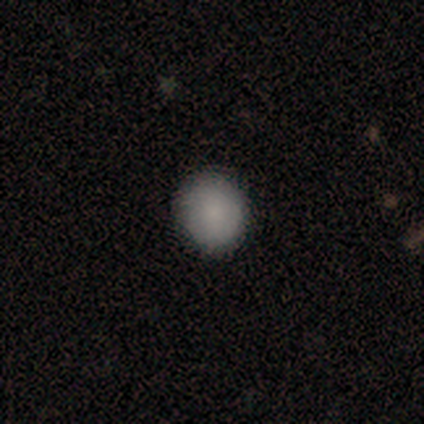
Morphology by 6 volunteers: A smooth galaxy with no disk features (83%) that is round (60%).

Vote fractions:
- Smooth or featured? smooth: 83% / featured or disk: 17% / star or artifact: 0%
- How rounded? round: 60% / in between: 40% / cigar-shaped: 0%
- Merging? none: 67% / minor disturbance: 17% / merger: 17% / major disturbance: 0%